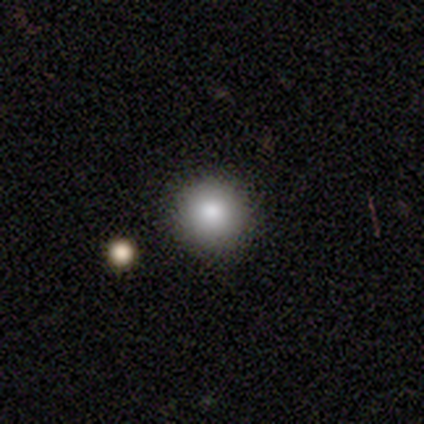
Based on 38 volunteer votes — Smooth or featured? smooth (87%)
How rounded? round (97%)
Merging? none (92%)